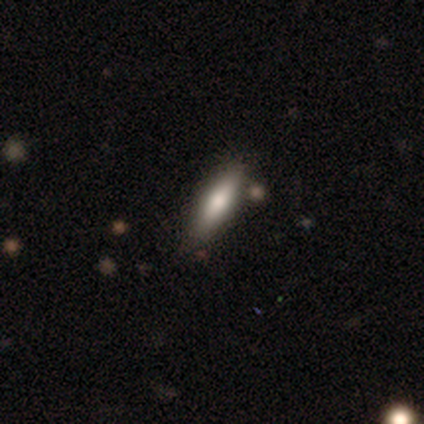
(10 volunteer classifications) Morphology: type=smooth (90%); roundness=cigar-shaped (67%); merging=none (89%).